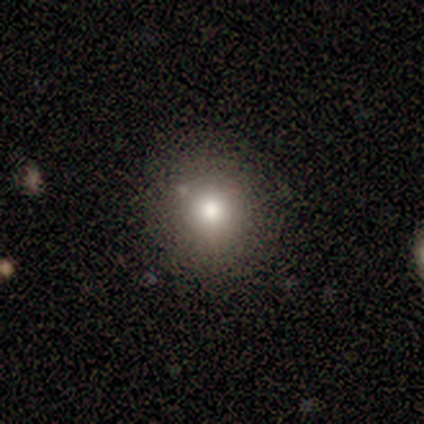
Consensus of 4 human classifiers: Morphology: type=smooth (100%); roundness=round (100%); merging=none (75%).